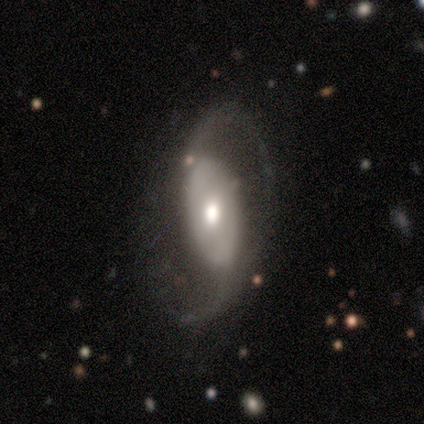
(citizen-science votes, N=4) Q: Smooth or featured?
A: featured or disk (100%)
Q: Edge-on disk?
A: no (75%); runner-up: yes (25%)
Q: Bar?
A: strong (67%); runner-up: weak (33%)
Q: Spiral arms?
A: yes (100%)
Q: Spiral winding?
A: loose (67%); runner-up: medium (33%)
Q: Spiral arm count?
A: 2 (100%)
Q: Bulge size?
A: small (67%); runner-up: large (33%)
Q: Merging?
A: none (100%)